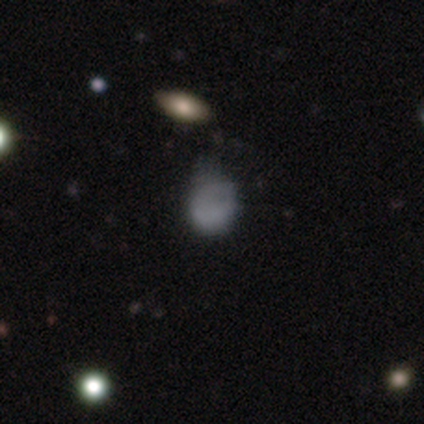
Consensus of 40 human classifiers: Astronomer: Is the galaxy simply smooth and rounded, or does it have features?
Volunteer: smooth — 72%.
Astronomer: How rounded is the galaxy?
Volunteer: round — 69%.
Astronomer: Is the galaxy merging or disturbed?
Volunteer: minor disturbance — 44% (runner-up: none, 29%).